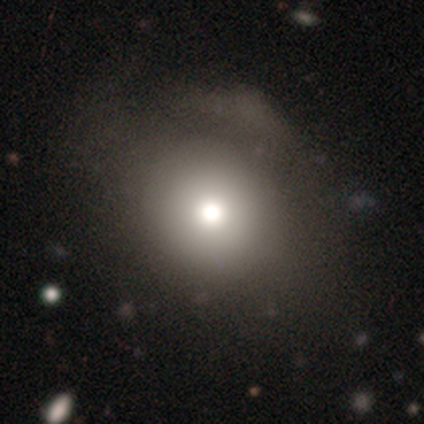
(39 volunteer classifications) smooth 77%, featured or disk 23%, star or artifact 0%. Down the decision tree: how rounded — round (60%); merging — none (44%).